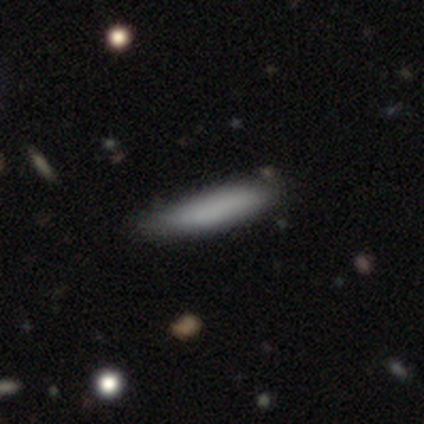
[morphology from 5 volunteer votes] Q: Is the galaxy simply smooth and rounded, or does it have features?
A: smooth — 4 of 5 (80%).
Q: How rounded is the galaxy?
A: cigar-shaped — 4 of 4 (100%).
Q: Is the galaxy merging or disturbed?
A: none — 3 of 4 (75%).